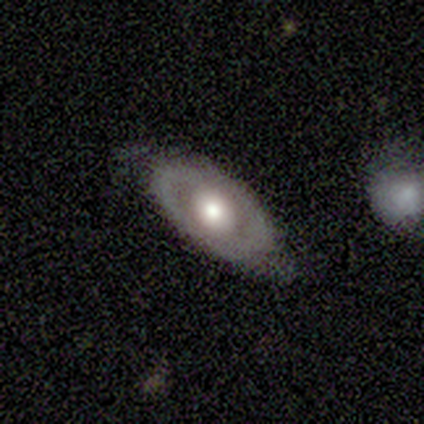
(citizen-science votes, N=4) Overall: smooth (75%). How rounded: in between (100%). Merging: none (75%).